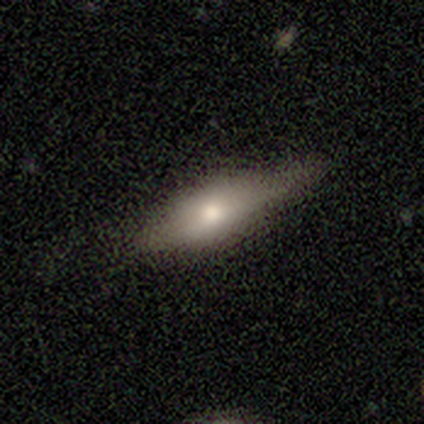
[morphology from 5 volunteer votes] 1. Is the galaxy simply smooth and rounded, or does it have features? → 60% smooth, 40% featured or disk, 0% star or artifact.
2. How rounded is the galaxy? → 100% in between, 0% round, 0% cigar-shaped.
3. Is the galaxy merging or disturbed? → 60% minor disturbance, 40% none, 0% major disturbance, 0% merger.